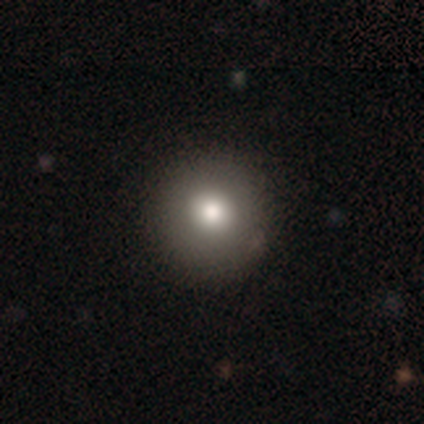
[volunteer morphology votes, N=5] Smooth or featured: smooth — 80% (star or artifact — 20%)
How rounded: round — 100%
Merging: none — 75% (minor disturbance — 25%)